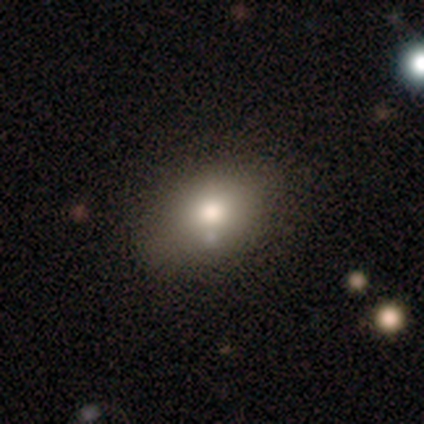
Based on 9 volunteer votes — This appears to be a smooth galaxy with no disk features (67%) that is in between round and cigar-shaped (100%). Merging: none (89%).